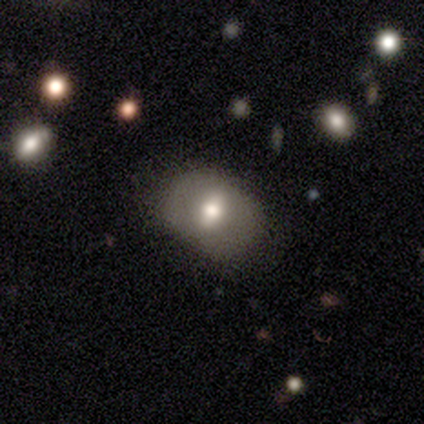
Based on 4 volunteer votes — Smooth or featured?
  - smooth: 50% * (tied)
  - featured or disk: 50% * (tied)
  - star or artifact: 0%
How rounded?
  - in between: 100% *
  - round: 0%
  - cigar-shaped: 0%
Merging?
  - none: 75% *
  - minor disturbance: 25%
  - major disturbance: 0%
  - merger: 0%